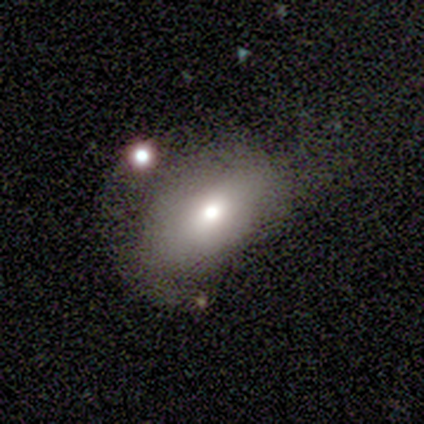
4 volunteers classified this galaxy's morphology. Q: Smooth or featured?
A: smooth (50%); runner-up: featured or disk (25%)
Q: How rounded?
A: round (50%); tied with: in between (50%)
Q: Merging?
A: minor disturbance (33%); tied with: major disturbance (33%); merger (33%)